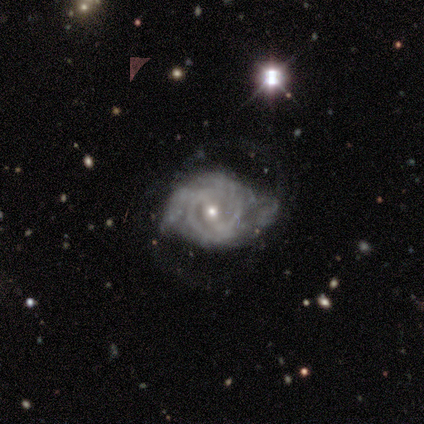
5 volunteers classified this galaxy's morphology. A featured or disk galaxy (100%) with a weak bar (60%), tight (60%) spiral arms (100%) and a small central bulge (80%). Merging: major disturbance (60%).